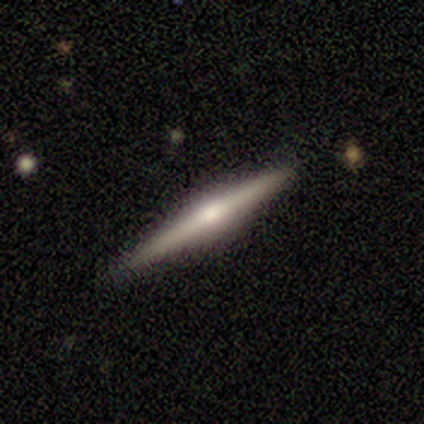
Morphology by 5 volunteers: smooth-or-featured: featured or disk: 80% | smooth: 20% | star or artifact: 0%
  disk-edge-on: yes: 100% | no: 0%
    edge-on-bulge: rounded: 100% | boxy: 0% | none: 0%
  merging: none: 100% | minor disturbance: 0% | major disturbance: 0% | merger: 0%